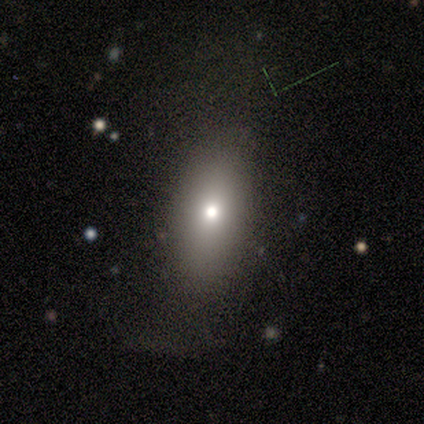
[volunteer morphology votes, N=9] smooth-or-featured: smooth: 44% | featured or disk: 33% | star or artifact: 22%
  how-rounded: in between: 100% | round: 0% | cigar-shaped: 0%
  merging: none: 57% | minor disturbance: 29% | major disturbance: 14% | merger: 0%